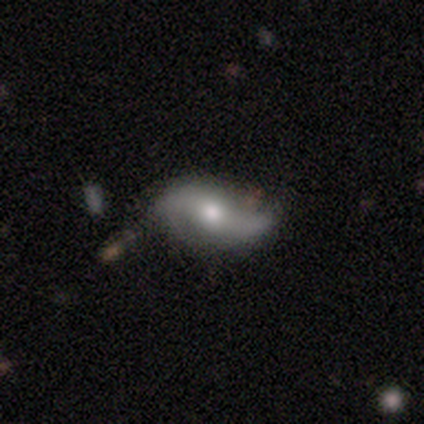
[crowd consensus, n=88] Smooth or featured? featured or disk (78%)
Edge-on disk? no (93%)
Bar? no (52%)
Spiral arms? yes (83%)
Spiral winding? loose (83%)
Spiral arm count? 2 (92%)
Bulge size? moderate (84%)
Merging? none (64%)